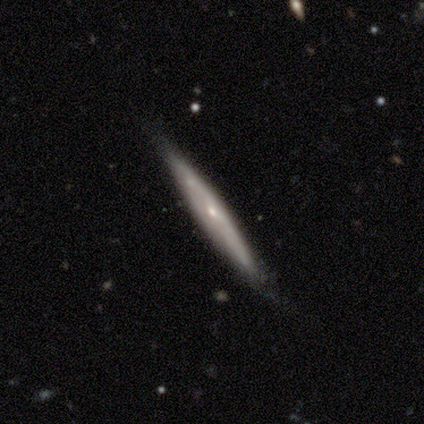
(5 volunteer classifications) Smooth or featured? 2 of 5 (40%, tied with star or artifact) said smooth. How rounded? 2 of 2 (100%) said cigar-shaped. Merging? 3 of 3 (100%) said none.